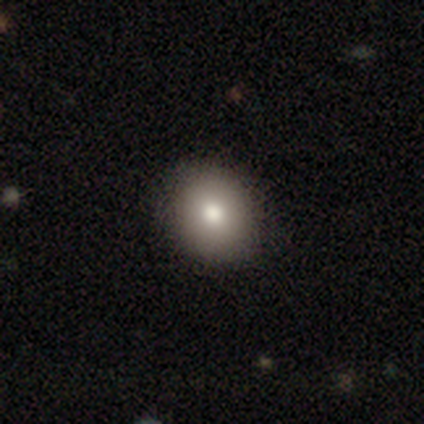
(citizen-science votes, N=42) Smooth or featured?
  - smooth: 74% *
  - featured or disk: 17%
  - star or artifact: 10%
How rounded?
  - round: 74% *
  - in between: 26%
  - cigar-shaped: 0%
Merging?
  - none: 74% *
  - major disturbance: 5%
  - minor disturbance: 3%
  - merger: 0%